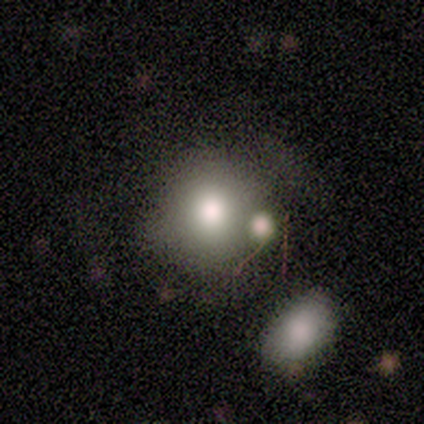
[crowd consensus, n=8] smooth 62%, star or artifact 25%, featured or disk 12%. Down the decision tree: how rounded — round (80%); merging — none (67%).